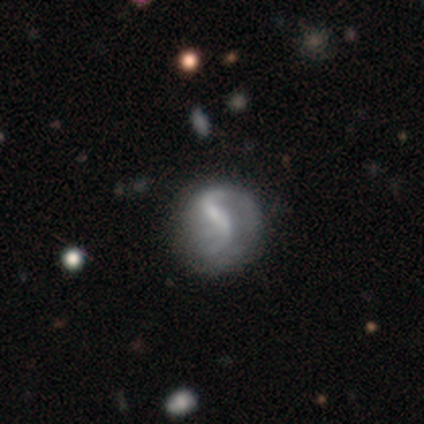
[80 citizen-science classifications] smooth-or-featured: featured or disk: 82% | smooth: 16% | star or artifact: 1%
  disk-edge-on: no: 98% | yes: 2%
    bar: strong: 51% | weak: 28% | no: 22%
    has-spiral-arms: yes: 92% | no: 8%
      spiral-winding: loose: 72% | medium: 20% | tight: 8%
      spiral-arm-count: 2: 87% | can't tell: 8% | 1: 3% | 3: 2% | 4: 0% | more than 4: 0%
    bulge-size: small: 38% | none: 37% | moderate: 18% | large: 6% | dominant: 0%
  merging: none: 27% | minor disturbance: 15% | major disturbance: 9% | merger: 1%